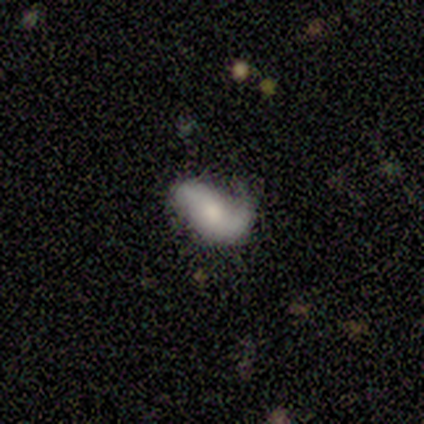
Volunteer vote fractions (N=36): Smooth or featured?
  - featured or disk: 47% *
  - smooth: 42%
  - star or artifact: 11%
Edge-on disk?
  - no: 100% *
  - yes: 0%
Bar?
  - no: 71% *
  - weak: 24%
  - strong: 6%
Spiral arms?
  - yes: 88% *
  - no: 12%
Spiral winding?
  - loose: 67% *
  - medium: 27%
  - tight: 7%
Spiral arm count?
  - 1: 53% *
  - 2: 33%
  - can't tell: 13%
  - 3: 0%
  - 4: 0%
  - more than 4: 0%
Bulge size?
  - moderate: 47% *
  - small: 41%
  - large: 6%
  - none: 6%
  - dominant: 0%
Merging?
  - none: 38% *
  - minor disturbance: 31%
  - major disturbance: 28%
  - merger: 3%